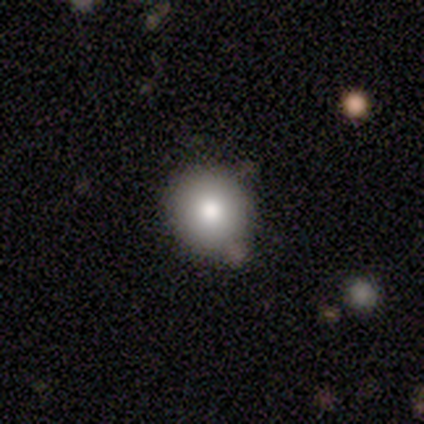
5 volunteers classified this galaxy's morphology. Overall: smooth (80%). How rounded: round (100%). Merging: none (75%).